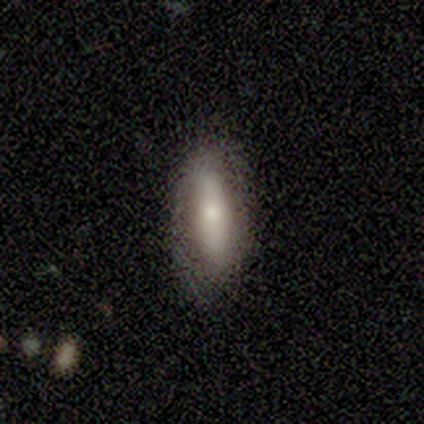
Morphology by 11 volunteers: smooth_or_featured: smooth (p=0.45) [tied with: featured or disk p=0.45]
how_rounded: in between (p=0.60) [alt: cigar-shaped p=0.40]
merging: none (p=0.90) [alt: minor disturbance p=0.10]